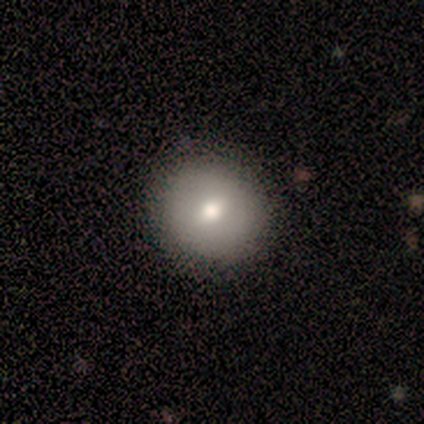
Smooth or featured? smooth (100%)
How rounded? round (100%)
Merging? none (100%)